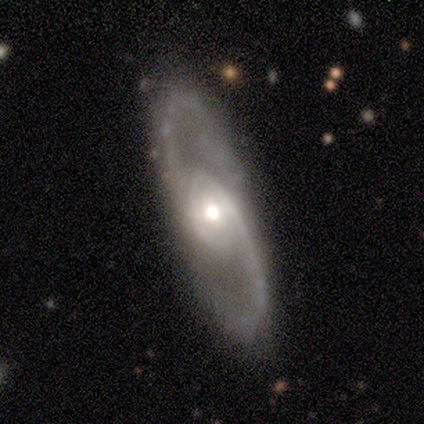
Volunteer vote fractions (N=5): This is clearly a featured or disk galaxy (100%). It is clearly not viewed edge-on (80%). Bar: likely no (75%). Spiral arm pattern: clearly yes (100%). Spiral arm count: clearly 2 (100%). Spiral winding: possibly tight (50%, tied with medium). Central bulge: likely moderate (75%). Merging: clearly none (100%).